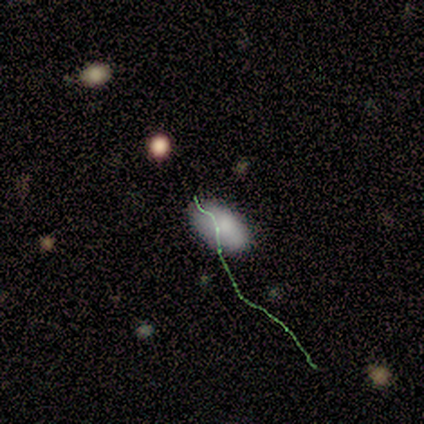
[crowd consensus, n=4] Smooth or featured: smooth — 100%
How rounded: in between — 100%
Merging: none — 50% (minor disturbance — 25%)